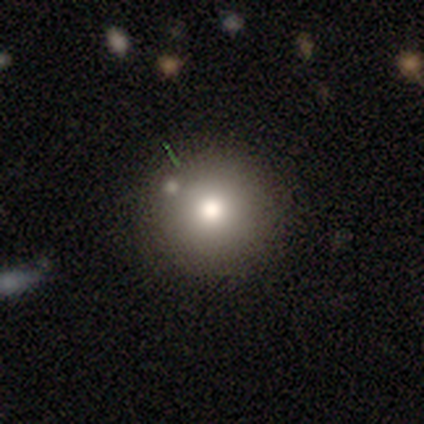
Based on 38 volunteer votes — smooth_or_featured: smooth (p=0.79) [alt: featured or disk p=0.11]
how_rounded: round (p=0.90) [alt: in between p=0.10]
merging: none (p=0.82) [alt: minor disturbance p=0.06]